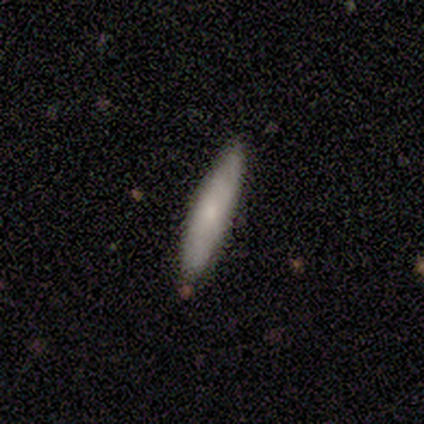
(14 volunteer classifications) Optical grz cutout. It shows a smooth galaxy with no disk features (93%) that is cigar-shaped (69%). Merging: none (71%).